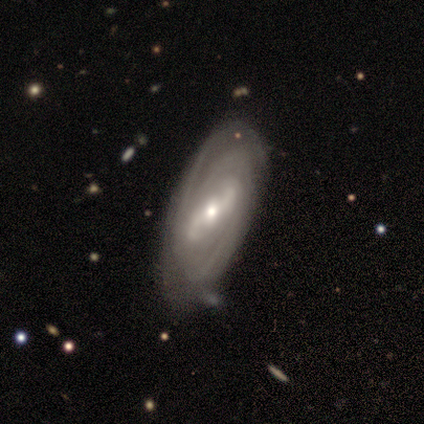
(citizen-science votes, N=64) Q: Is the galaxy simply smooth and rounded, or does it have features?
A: featured or disk — 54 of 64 (84%).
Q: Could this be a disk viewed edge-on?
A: no — 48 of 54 (89%).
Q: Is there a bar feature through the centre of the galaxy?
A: strong — 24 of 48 (50%).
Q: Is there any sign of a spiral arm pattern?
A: yes — 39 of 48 (81%).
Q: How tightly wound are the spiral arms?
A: tight — 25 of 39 (64%).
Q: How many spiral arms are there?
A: can't tell — 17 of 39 (44%).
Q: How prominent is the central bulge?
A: moderate — 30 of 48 (62%).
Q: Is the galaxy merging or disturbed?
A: none — 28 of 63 (44%).